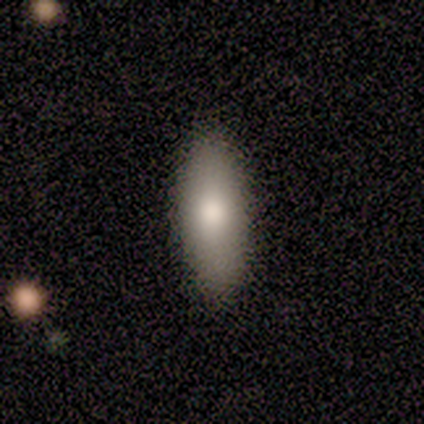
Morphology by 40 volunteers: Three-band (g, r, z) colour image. It shows a smooth galaxy with no disk features (92%) that is in between round and cigar-shaped (76%). Merging: none (67%).